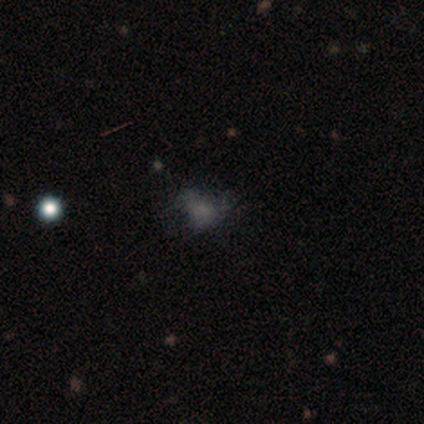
This appears to be a smooth galaxy with no disk features (62%) that is in between round and cigar-shaped (80%). Merging: major disturbance (42%).